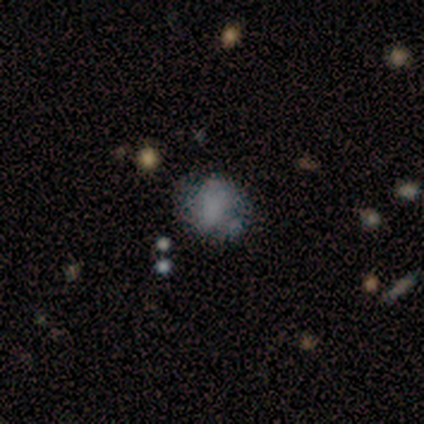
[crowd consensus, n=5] Smooth or featured?
  - featured or disk: 40% * (tied)
  - star or artifact: 40% * (tied)
  - smooth: 20%
Edge-on disk?
  - no: 100% *
  - yes: 0%
Bar?
  - no: 100% *
  - strong: 0%
  - weak: 0%
Spiral arms?
  - no: 100% *
  - yes: 0%
Bulge size?
  - none: 100% *
  - dominant: 0%
  - large: 0%
  - moderate: 0%
  - small: 0%
Merging?
  - none: 67% *
  - minor disturbance: 33%
  - major disturbance: 0%
  - merger: 0%